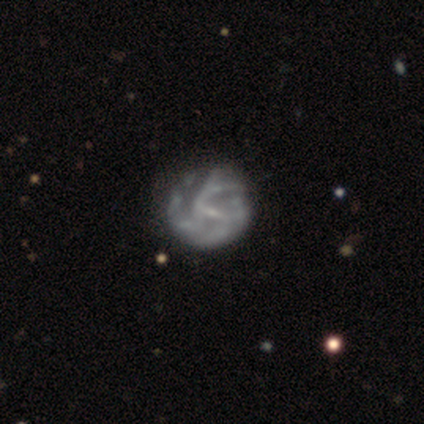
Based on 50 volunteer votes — Morphology: type=featured or disk (82%); edge-on=no (100%); bar=weak (66%); spiral arms=yes (73%); winding=tight (40%); arm count=can't tell (50%); bulge=small (66%); merging=none (48%).